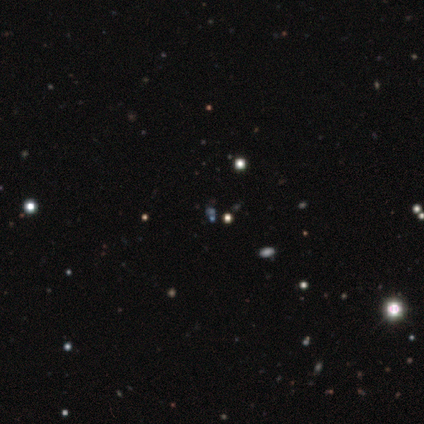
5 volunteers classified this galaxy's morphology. smooth-or-featured: star or artifact: 80% | smooth: 20% | featured or disk: 0%